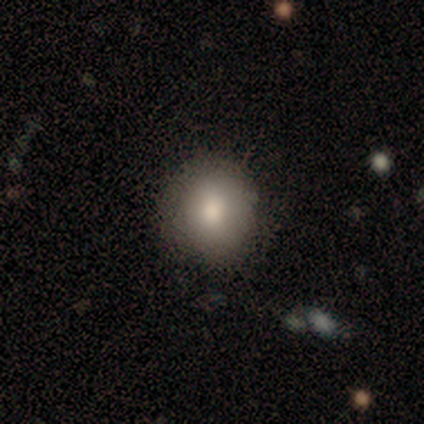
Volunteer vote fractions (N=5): Overall: smooth (100%). How rounded: round (80%). Merging: none (100%).